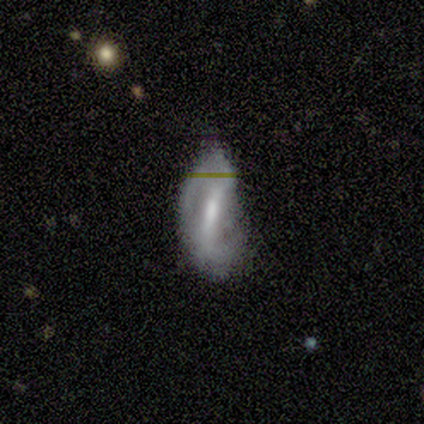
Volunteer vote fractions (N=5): Smooth or featured: featured or disk — 100%
Edge-on disk: no — 80% (yes — 20%)
Bar: strong — 50% (tied with weak — 50%)
Spiral arms: yes — 100%
Spiral winding: loose — 50% (tight — 25%)
Spiral arm count: 2 — 100%
Bulge size: moderate — 100%
Merging: none — 40% (tied with minor disturbance — 40%)